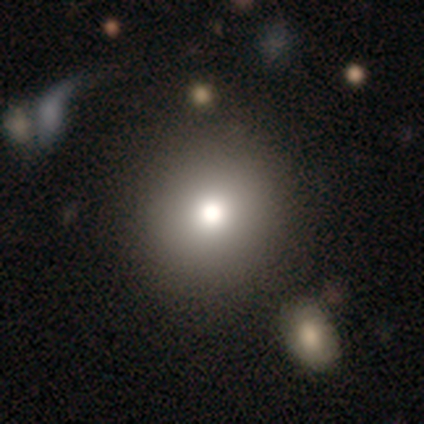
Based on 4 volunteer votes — This is likely a smooth galaxy (75%). How rounded: clearly round (100%). Merging: likely none (67%).